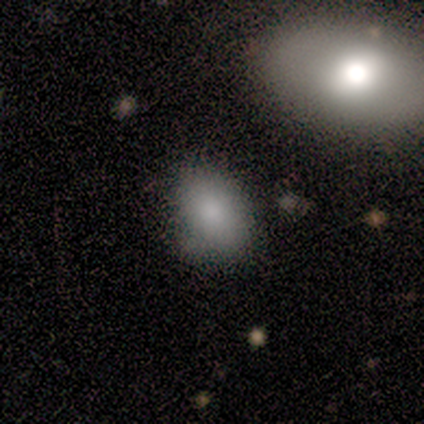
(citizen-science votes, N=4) Consensus on every question: smooth or featured — smooth (100%); how rounded — in between (100%); merging — none (100%).